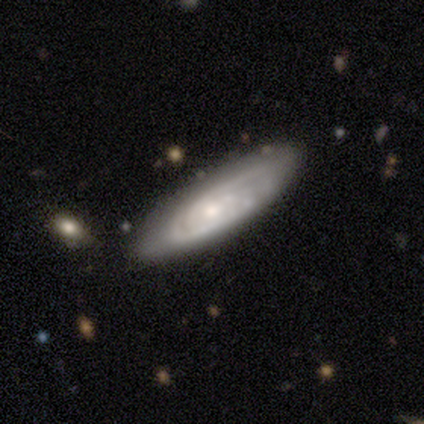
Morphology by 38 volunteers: Smooth or featured? featured or disk (71%)
Edge-on disk? no (81%)
Bar? no (55%)
Spiral arms? yes (91%)
Spiral winding? tight (50%)
Spiral arm count? can't tell (50%)
Bulge size? small (45%)
Merging? none (60%)